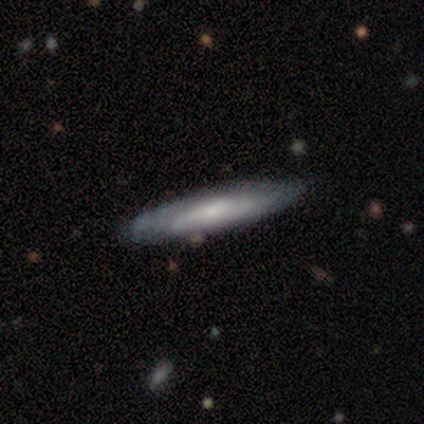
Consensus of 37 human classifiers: This appears to be a smooth galaxy with no disk features (54%) that is cigar-shaped (100%). Merging: none (81%).